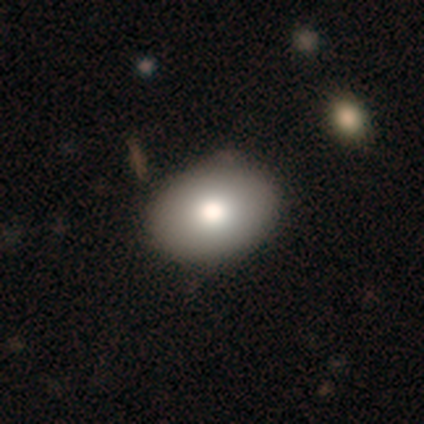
A smooth galaxy with no disk features (100%) that is in between round and cigar-shaped (75%).

Vote fractions:
- Smooth or featured? smooth: 100% / featured or disk: 0% / star or artifact: 0%
- How rounded? in between: 75% / round: 25% / cigar-shaped: 0%
- Merging? none: 100% / minor disturbance: 0% / major disturbance: 0% / merger: 0%